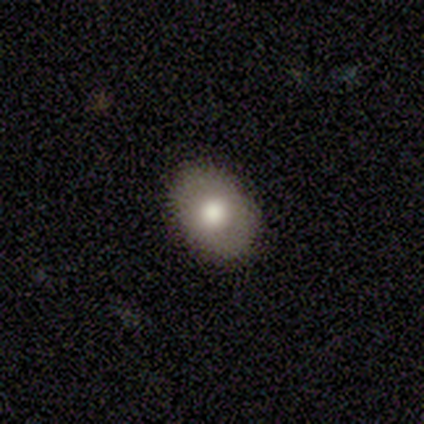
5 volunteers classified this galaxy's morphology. Smooth or featured? smooth (60%)
How rounded? round (67%)
Merging? none (100%)